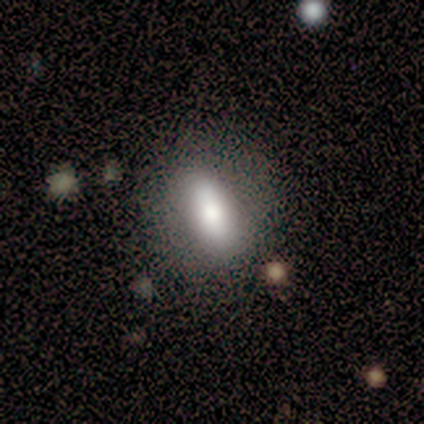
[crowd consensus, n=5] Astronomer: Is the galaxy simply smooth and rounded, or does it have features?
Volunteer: smooth — 80%.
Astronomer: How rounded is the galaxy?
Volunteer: in between — 75%.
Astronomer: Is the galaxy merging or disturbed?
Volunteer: none — 100%.